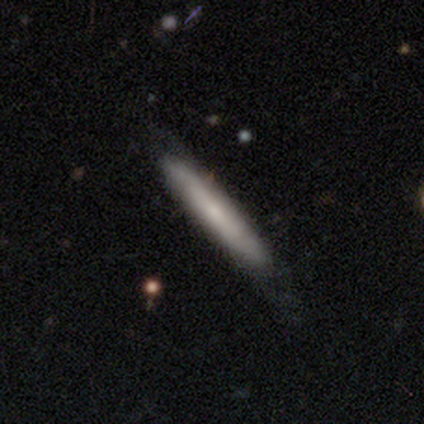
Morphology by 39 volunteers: smooth 54%, featured or disk 46%, star or artifact 0%. Down the decision tree: how rounded — cigar-shaped (95%); merging — none (72%).